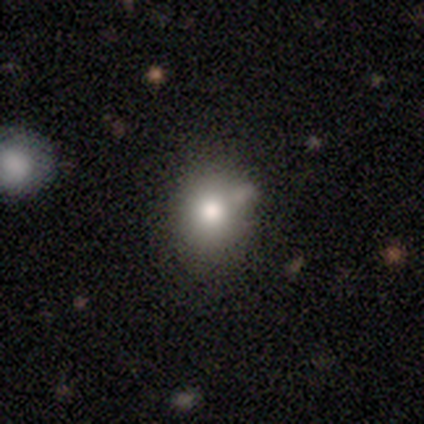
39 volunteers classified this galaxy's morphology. smooth_or_featured: smooth (p=0.77) [alt: featured or disk p=0.13]
how_rounded: round (p=0.73) [alt: in between p=0.27]
merging: none (p=0.60) [alt: minor disturbance p=0.26]